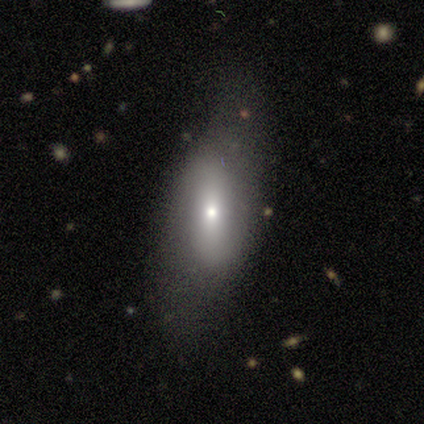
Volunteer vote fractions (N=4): smooth_or_featured: featured or disk (p=0.50) [alt: smooth p=0.25]
disk_edge_on: yes (p=0.50) [tied with: no p=0.50]
edge_on_bulge: rounded (p=1.00)
merging: minor disturbance (p=1.00)